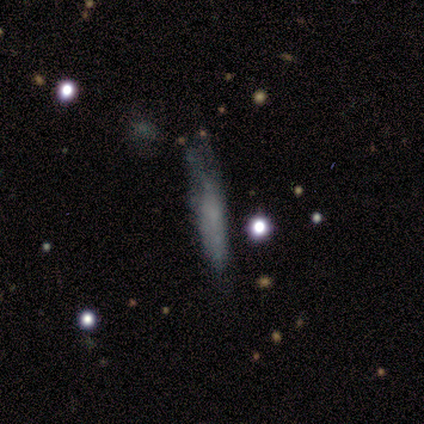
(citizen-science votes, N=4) Morphology: type=smooth (75%); roundness=cigar-shaped (67%); merging=major disturbance (50%).